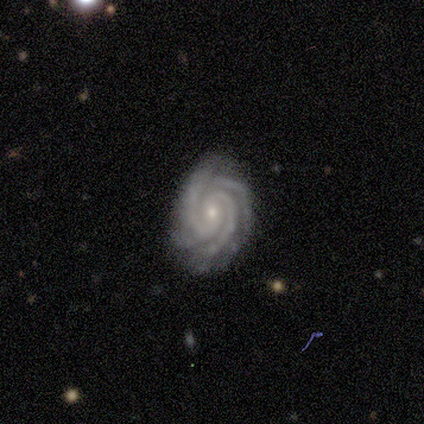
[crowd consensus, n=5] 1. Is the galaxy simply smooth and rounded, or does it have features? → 100% featured or disk, 0% smooth, 0% star or artifact.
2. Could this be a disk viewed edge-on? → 100% no, 0% yes.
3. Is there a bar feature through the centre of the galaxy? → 60% no, 40% weak, 0% strong.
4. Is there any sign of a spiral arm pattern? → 100% yes, 0% no.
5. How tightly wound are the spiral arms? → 100% tight, 0% medium, 0% loose.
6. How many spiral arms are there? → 60% 3, 20% 2, 20% 4, 0% 1, 0% more than 4, 0% can't tell.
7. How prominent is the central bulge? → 100% small, 0% dominant, 0% large, 0% moderate, 0% none.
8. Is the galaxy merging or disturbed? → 80% none, 20% major disturbance, 0% minor disturbance, 0% merger.